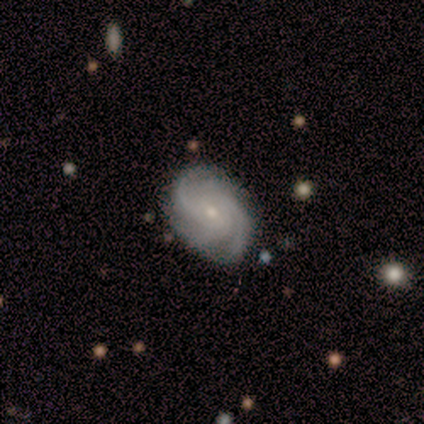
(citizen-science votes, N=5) A featured or disk galaxy (100%) with a weak bar (40%, tied with no), 3 (60%) tight (100%) spiral arms (100%) and a small central bulge (100%). Merging: none (100%).